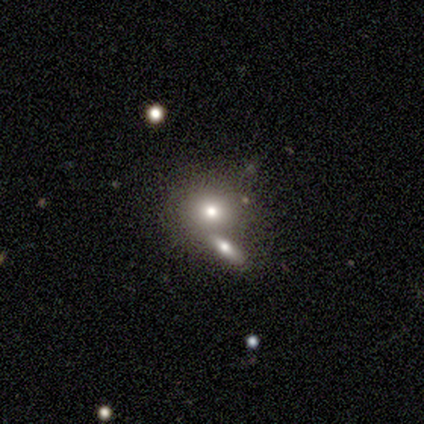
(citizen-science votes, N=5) A smooth galaxy with no disk features (60%) that is round (67%). Merging: merger (60%).